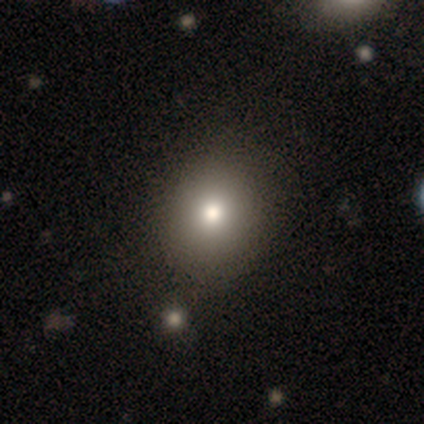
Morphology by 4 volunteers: Volunteers were most divided on "how rounded": round: 75%, in between: 25%, cigar-shaped: 0%. More confident: smooth or featured — smooth (100%); merging — none (75%).